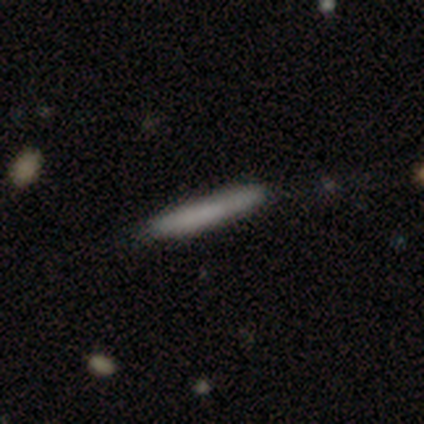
smooth-or-featured: smooth: 100% | featured or disk: 0% | star or artifact: 0%
  how-rounded: cigar-shaped: 100% | round: 0% | in between: 0%
  merging: none: 80% | minor disturbance: 20% | major disturbance: 0% | merger: 0%